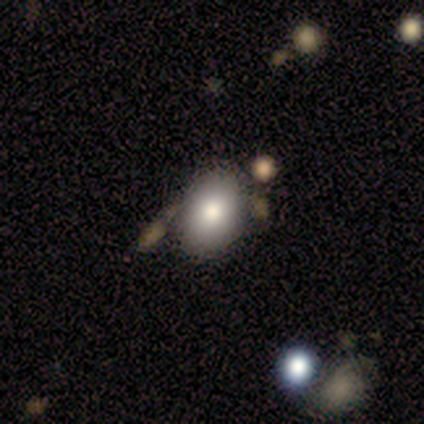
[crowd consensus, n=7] Overall: smooth (86%). How rounded: in between (100%). Merging: none (83%).